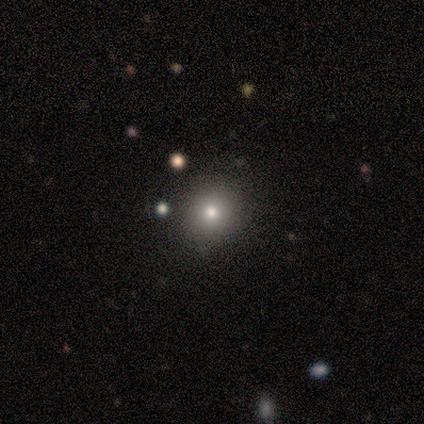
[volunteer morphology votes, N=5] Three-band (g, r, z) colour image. It shows a smooth galaxy with no disk features (100%) that is round (80%). Merging: none (80%).